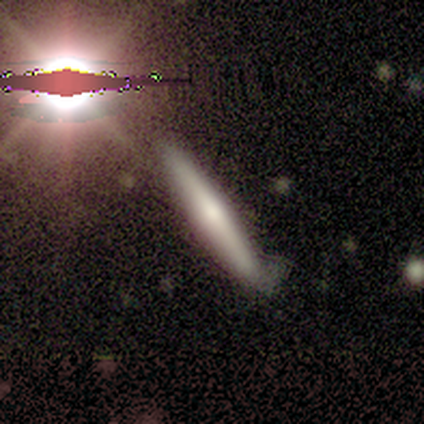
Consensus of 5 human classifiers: This is likely a featured or disk galaxy (60%). It is clearly viewed edge-on (100%). Edge-on bulge: clearly rounded (100%). Merging: clearly none (80%).